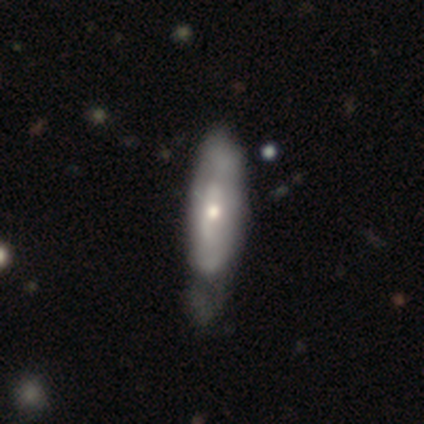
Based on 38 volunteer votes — Smooth or featured? featured or disk (50%)
Edge-on disk? no (79%)
Bar? no (67%)
Spiral arms? yes (53%)
Spiral winding? medium (50%)
Spiral arm count? can't tell (75%)
Bulge size? moderate (53%)
Merging? minor disturbance (22%)